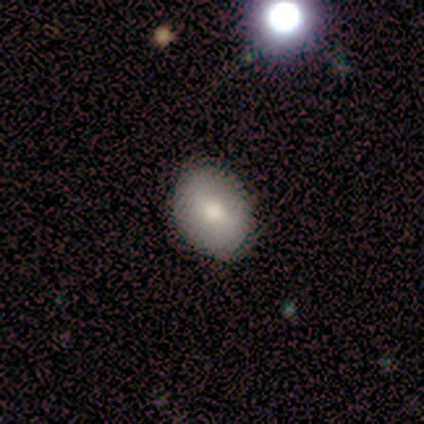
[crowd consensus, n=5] Smooth or featured? 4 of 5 (80%) said smooth. How rounded? 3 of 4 (75%) said in between. Merging? 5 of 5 (100%) said none.